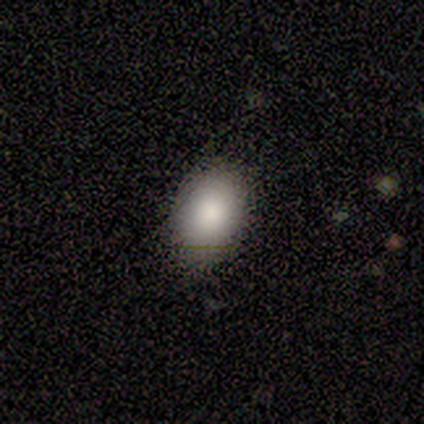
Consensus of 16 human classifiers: Smooth or featured? smooth (88%)
How rounded? in between (79%)
Merging? none (87%)